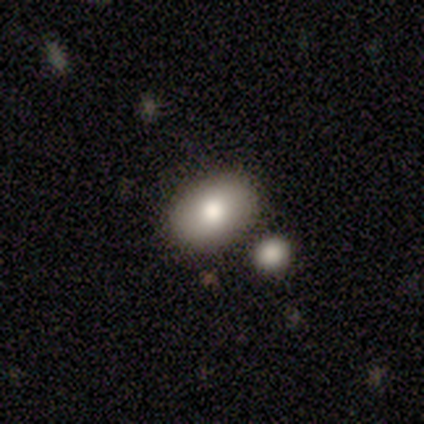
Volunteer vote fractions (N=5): Smooth or featured: smooth — 60% (featured or disk — 40%)
How rounded: in between — 100%
Merging: none — 60% (minor disturbance — 20%)